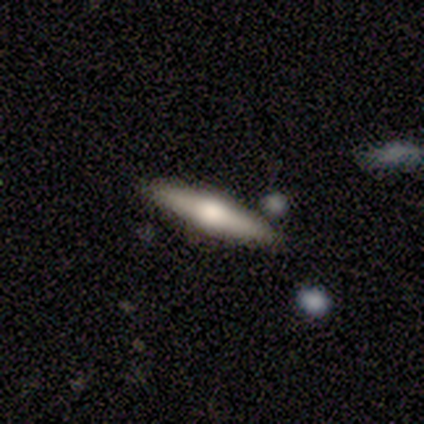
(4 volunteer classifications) A smooth galaxy with no disk features (50%, tied with featured or disk) that is cigar-shaped (100%). Merging: none (75%).